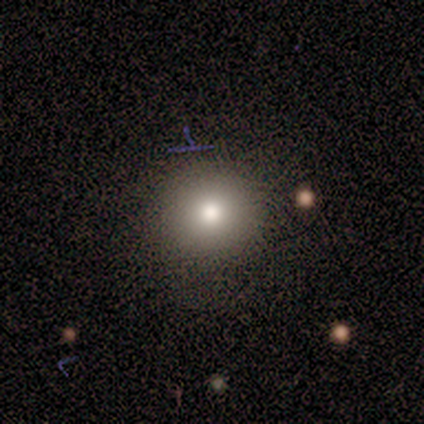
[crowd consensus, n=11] smooth-or-featured: smooth: 100% | featured or disk: 0% | star or artifact: 0%
  how-rounded: round: 91% | in between: 9% | cigar-shaped: 0%
  merging: none: 82% | minor disturbance: 9% | major disturbance: 9% | merger: 0%